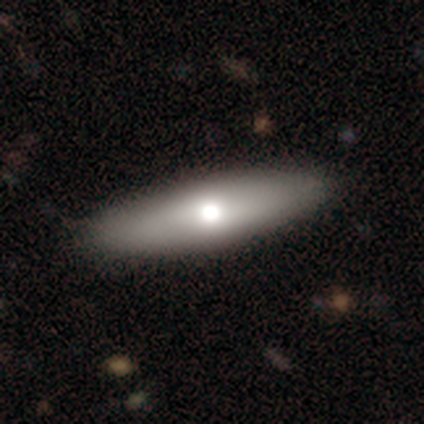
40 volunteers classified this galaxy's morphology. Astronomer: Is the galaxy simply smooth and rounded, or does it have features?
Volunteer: smooth — 75%.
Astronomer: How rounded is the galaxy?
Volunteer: cigar-shaped — 50% (runner-up: in between, 47%).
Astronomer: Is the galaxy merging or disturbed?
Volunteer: none — 44%.